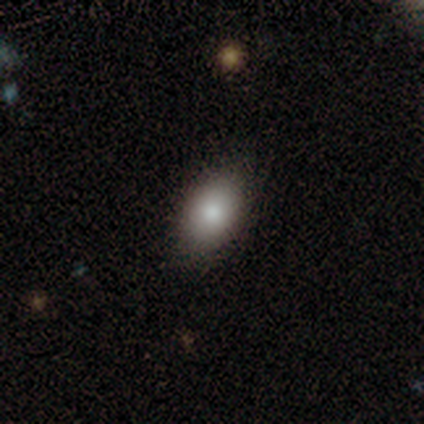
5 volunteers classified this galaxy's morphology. Smooth or featured?
  - smooth: 100% *
  - featured or disk: 0%
  - star or artifact: 0%
How rounded?
  - in between: 80% *
  - round: 20%
  - cigar-shaped: 0%
Merging?
  - none: 80% *
  - minor disturbance: 20%
  - major disturbance: 0%
  - merger: 0%